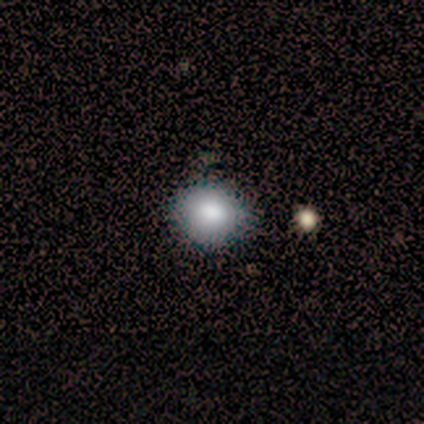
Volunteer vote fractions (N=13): A smooth galaxy with no disk features (77%) that is round (70%). Merging: none (100%).